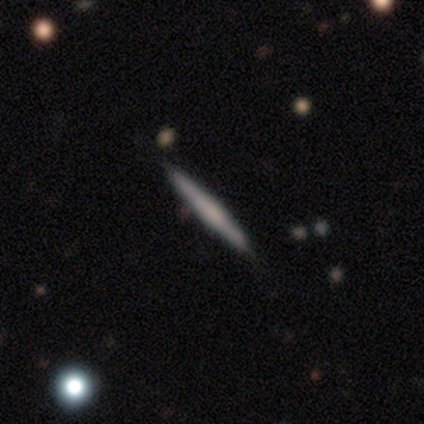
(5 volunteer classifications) Overall: smooth (80%). How rounded: cigar-shaped (100%). Merging: none (100%).